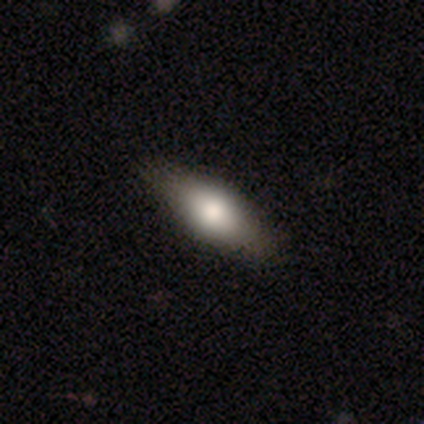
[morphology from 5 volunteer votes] Smooth or featured? smooth (60%)
How rounded? in between (100%)
Merging? none (100%)